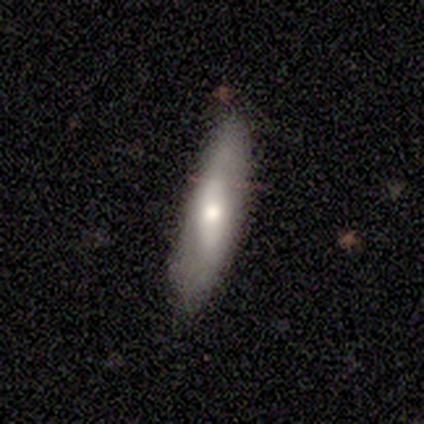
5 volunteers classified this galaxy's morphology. Volunteers were most divided on "smooth or featured": smooth: 60%, featured or disk: 40%, star or artifact: 0%. More confident: how rounded — cigar-shaped (100%); merging — none (100%).